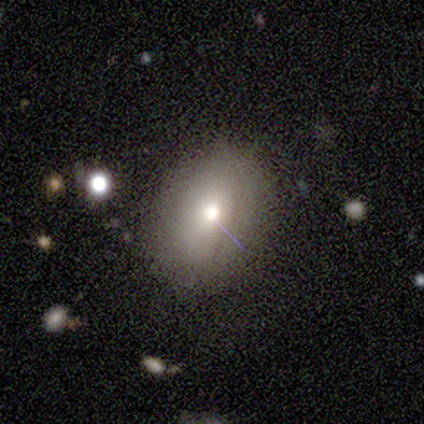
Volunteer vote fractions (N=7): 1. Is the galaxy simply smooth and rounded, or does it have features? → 57% smooth, 29% star or artifact, 14% featured or disk.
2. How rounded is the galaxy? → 50% round (tied), 50% in between (tied), 0% cigar-shaped.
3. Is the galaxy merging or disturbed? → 100% none, 0% minor disturbance, 0% major disturbance, 0% merger.